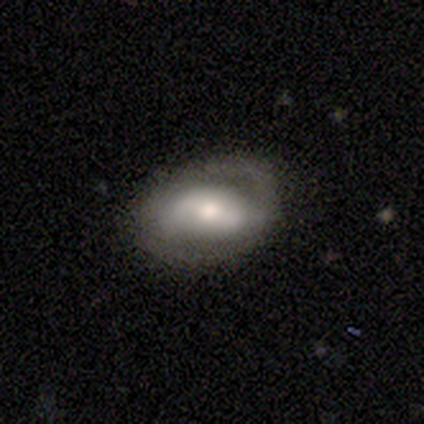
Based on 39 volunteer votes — Volunteers were most divided on "bar": strong: 46%, weak: 36%, no: 18%. More confident: edge-on disk — no (100%); spiral arms — yes (79%); spiral arm count — 2 (77%); smooth or featured — featured or disk (72%); bulge size — moderate (64%); merging — none (63%); spiral winding — medium (55%).